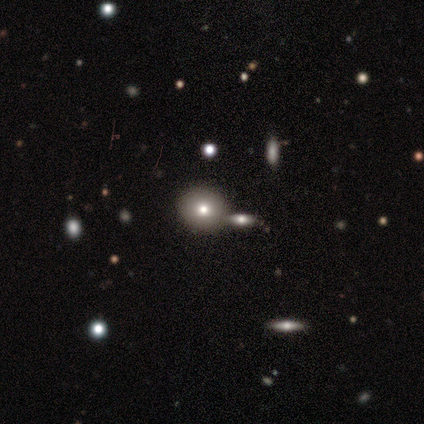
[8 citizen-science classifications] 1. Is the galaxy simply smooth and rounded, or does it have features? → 50% smooth, 25% featured or disk, 25% star or artifact.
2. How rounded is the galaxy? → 100% round, 0% in between, 0% cigar-shaped.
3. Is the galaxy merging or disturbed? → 67% none, 33% minor disturbance, 0% major disturbance, 0% merger.